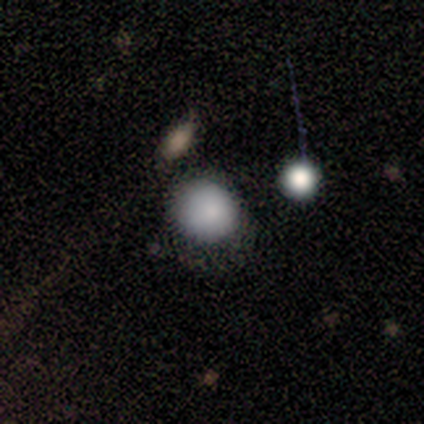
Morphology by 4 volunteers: A smooth galaxy with no disk features (75%) that is in between round and cigar-shaped (67%). Merging: none (67%).